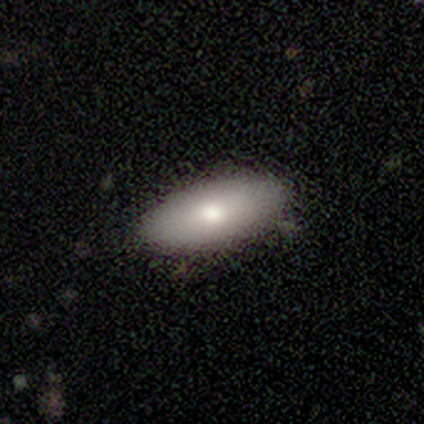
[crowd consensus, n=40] This appears to be a smooth galaxy with no disk features (80%) that is in between round and cigar-shaped (84%). Merging: none (86%).